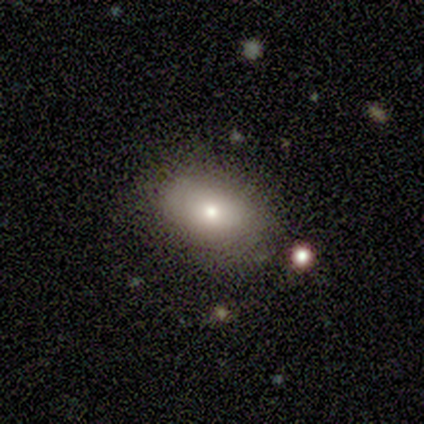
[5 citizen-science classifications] smooth-or-featured: smooth: 100% | featured or disk: 0% | star or artifact: 0%
  how-rounded: in between: 60% | round: 40% | cigar-shaped: 0%
  merging: none: 80% | minor disturbance: 20% | major disturbance: 0% | merger: 0%